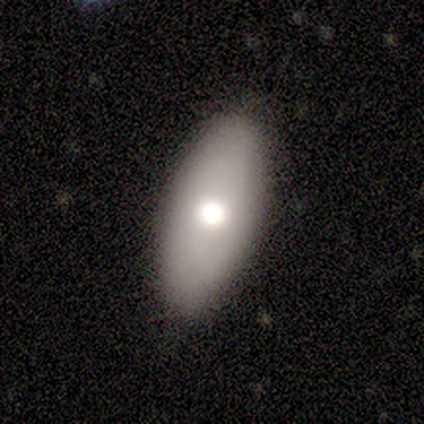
Morphology: type=featured or disk (60%); edge-on=no (100%); bar=no (100%); spiral arms=no (100%); bulge=moderate (67%); merging=none (100%).